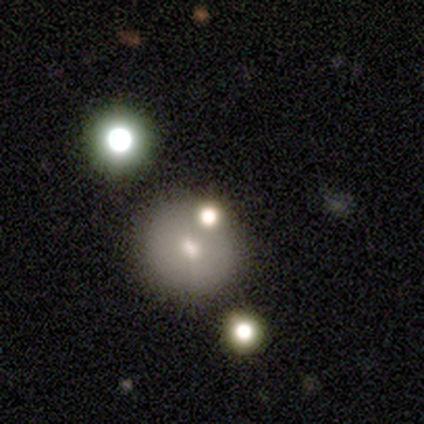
A smooth galaxy with no disk features (80%) that is round (100%). Merging: none (100%).